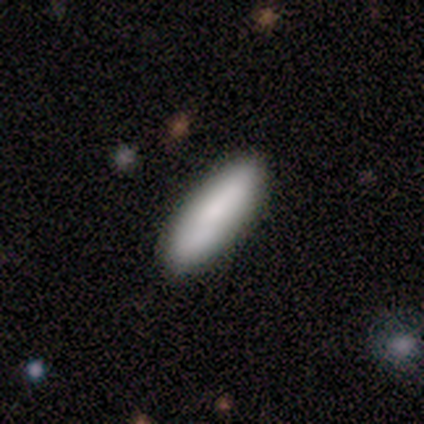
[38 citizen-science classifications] smooth 82%, featured or disk 13%, star or artifact 5%. Down the decision tree: how rounded — cigar-shaped (58%); merging — none (86%).